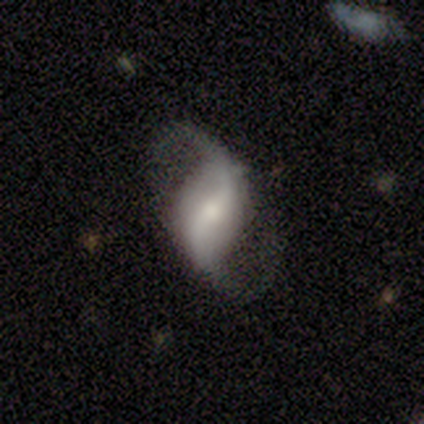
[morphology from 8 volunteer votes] Volunteers were most divided on "bar": weak: 50%, strong: 38%, no: 12%. More confident: smooth or featured — featured or disk (100%); edge-on disk — no (100%); spiral arm count — 2 (100%); spiral arms — yes (88%); merging — none (75%); spiral winding — loose (71%); bulge size — small (62%).